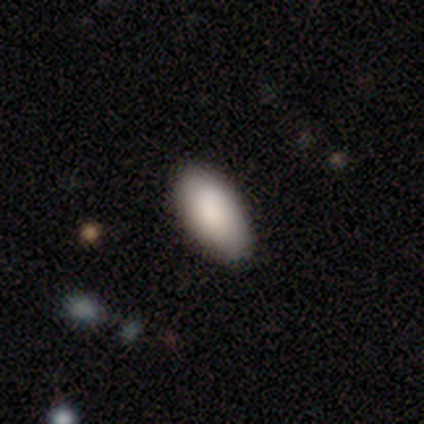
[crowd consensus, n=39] A smooth galaxy with no disk features (87%) that is in between round and cigar-shaped (94%). Merging: none (78%).